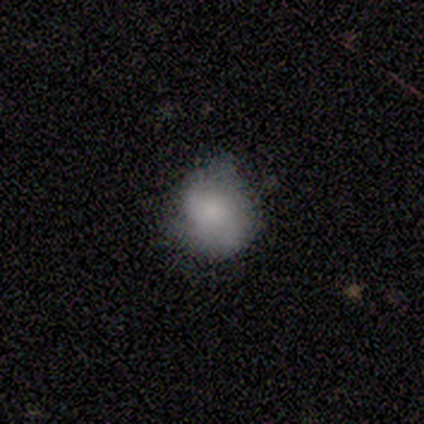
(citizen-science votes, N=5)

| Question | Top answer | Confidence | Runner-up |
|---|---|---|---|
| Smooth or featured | smooth | 60% | featured or disk (20%) |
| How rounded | round | 67% | in between (33%) |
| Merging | none | 50% | minor disturbance (25%) |